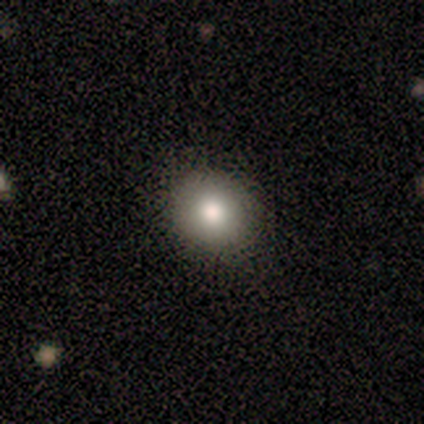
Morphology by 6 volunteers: A star or artifact, not a galaxy (83%).